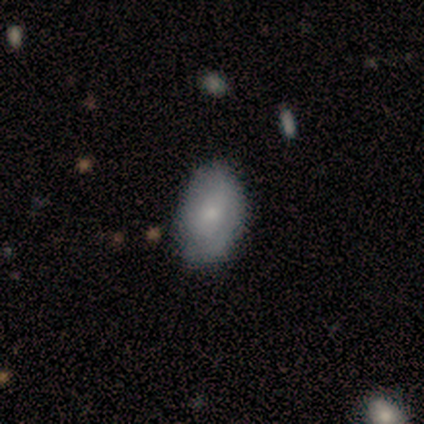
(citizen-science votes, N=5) smooth-or-featured: smooth: 60% | featured or disk: 20% | star or artifact: 20%
  how-rounded: in between: 67% | round: 33% | cigar-shaped: 0%
  merging: none: 50% | minor disturbance: 25% | major disturbance: 25% | merger: 0%